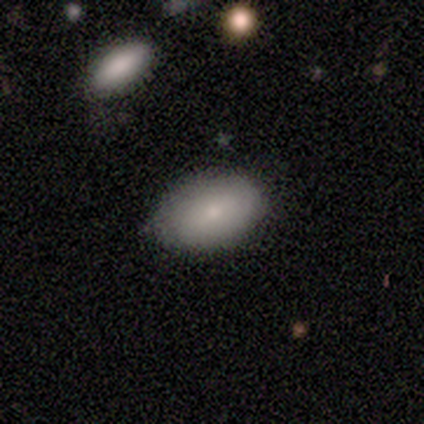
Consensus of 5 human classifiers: smooth_or_featured: smooth (p=1.00)
how_rounded: in between (p=1.00)
merging: none (p=0.80) [alt: minor disturbance p=0.20]